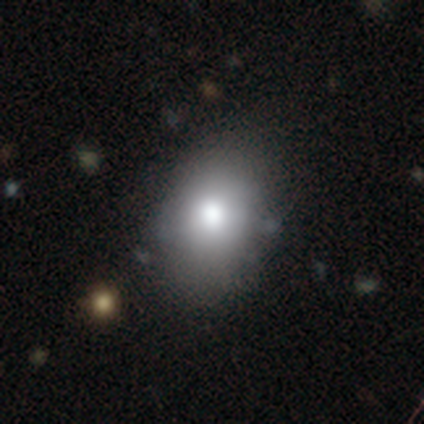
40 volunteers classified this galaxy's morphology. Smooth or featured: smooth — 82% (featured or disk — 15%)
How rounded: in between — 76% (round — 24%)
Merging: none — 67% (minor disturbance — 26%)